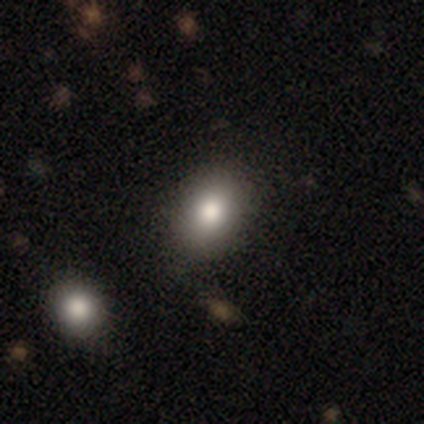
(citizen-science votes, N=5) Smooth or featured: smooth — 80% (featured or disk — 20%)
How rounded: round — 50% (tied with in between — 50%)
Merging: minor disturbance — 60% (none — 40%)